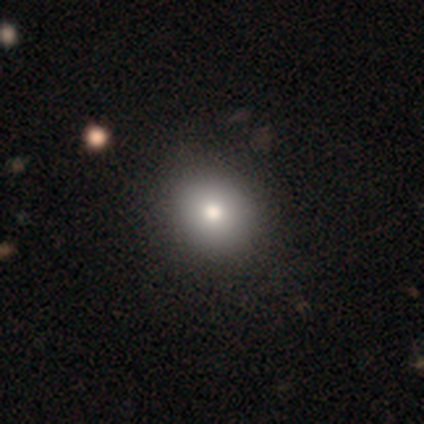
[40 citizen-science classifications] Morphology: type=smooth (82%); roundness=round (67%); merging=none (64%).